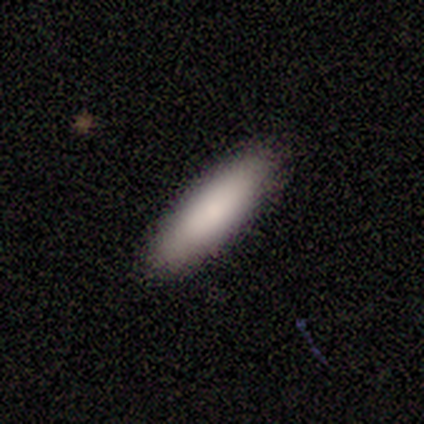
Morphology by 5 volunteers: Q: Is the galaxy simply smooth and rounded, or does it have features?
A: smooth — 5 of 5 (100%).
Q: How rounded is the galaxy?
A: cigar-shaped — 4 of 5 (80%).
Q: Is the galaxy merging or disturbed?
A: none — 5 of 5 (100%).